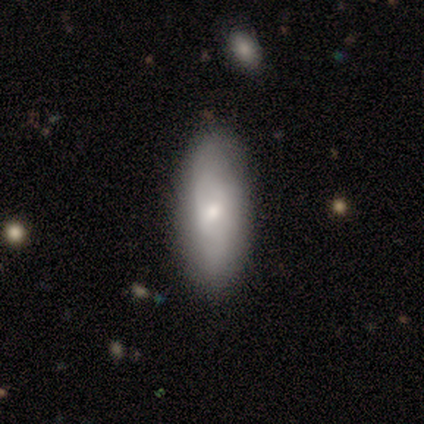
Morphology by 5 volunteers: type=featured or disk (60%); edge-on=no (100%); bar=no (67%); spiral arms=no (67%); bulge=moderate (67%); merging=none (100%).